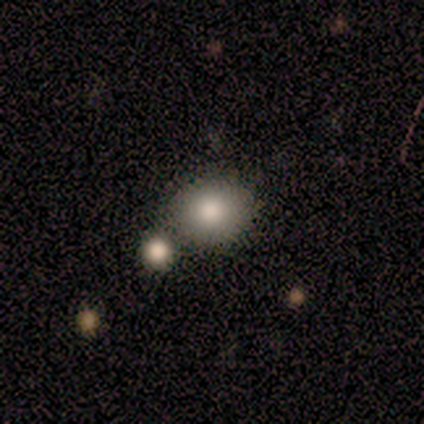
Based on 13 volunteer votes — A smooth galaxy with no disk features (100%) that is round (85%).

Vote fractions:
- Smooth or featured? smooth: 100% / featured or disk: 0% / star or artifact: 0%
- How rounded? round: 85% / in between: 15% / cigar-shaped: 0%
- Merging? none: 77% / merger: 15% / minor disturbance: 8% / major disturbance: 0%